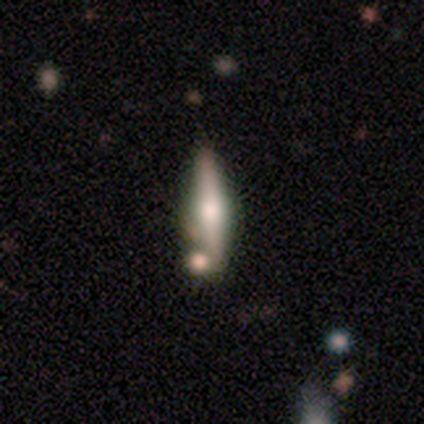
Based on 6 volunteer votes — Volunteers were most divided on "merging": none: 83%, minor disturbance: 17%, major disturbance: 0%, merger: 0%. More confident: smooth or featured — featured or disk (100%); edge-on disk — yes (100%); edge-on bulge — rounded (100%).